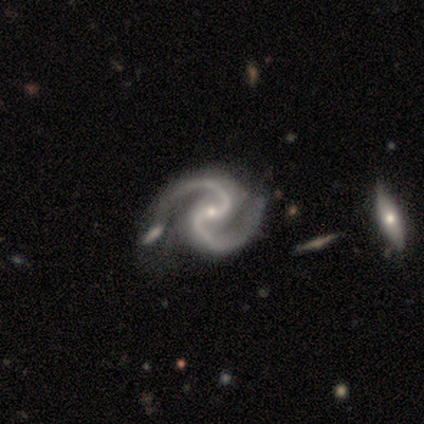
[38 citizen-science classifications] smooth_or_featured: featured or disk (p=0.92) [alt: star or artifact p=0.05]
disk_edge_on: no (p=1.00)
bar: no (p=0.49) [alt: weak p=0.37]
has_spiral_arms: yes (p=1.00)
spiral_winding: medium (p=0.89) [alt: tight p=0.06]
spiral_arm_count: 2 (p=1.00)
bulge_size: small (p=0.91) [alt: moderate p=0.09]
merging: minor disturbance (p=0.28) [alt: none p=0.22]